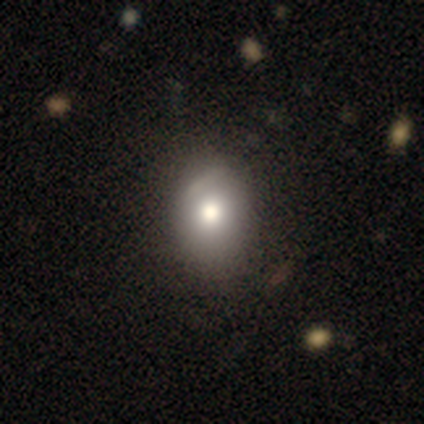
smooth-or-featured: smooth: 67% | featured or disk: 33% | star or artifact: 0%
  how-rounded: in between: 75% | round: 25% | cigar-shaped: 0%
  merging: none: 67% | minor disturbance: 33% | major disturbance: 0% | merger: 0%